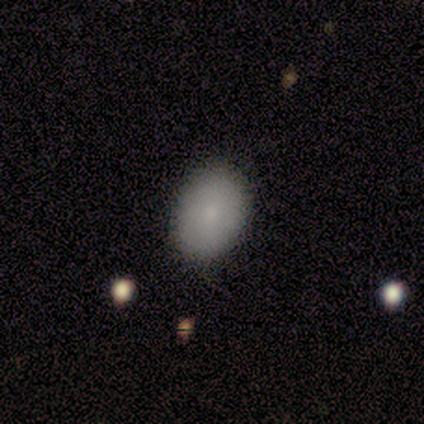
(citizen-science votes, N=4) Morphology: type=smooth (75%); roundness=in between (67%); merging=none (100%).